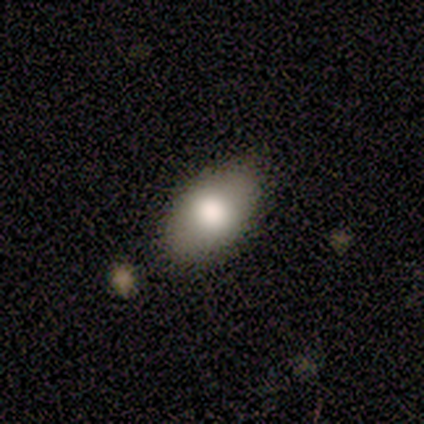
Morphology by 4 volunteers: Smooth or featured?
  - smooth: 75% *
  - featured or disk: 25%
  - star or artifact: 0%
How rounded?
  - in between: 100% *
  - round: 0%
  - cigar-shaped: 0%
Merging?
  - none: 100% *
  - minor disturbance: 0%
  - major disturbance: 0%
  - merger: 0%